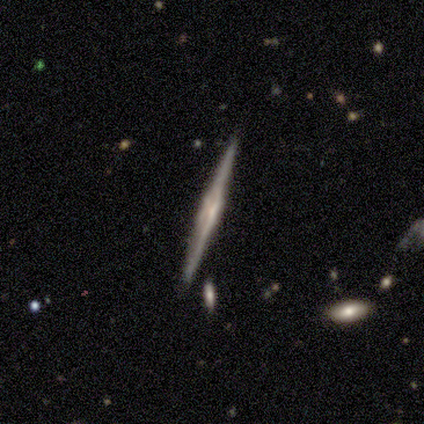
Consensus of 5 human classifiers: Morphology: type=featured or disk (60%); edge-on=yes (100%); edge-on bulge=none (67%); merging=none (100%).